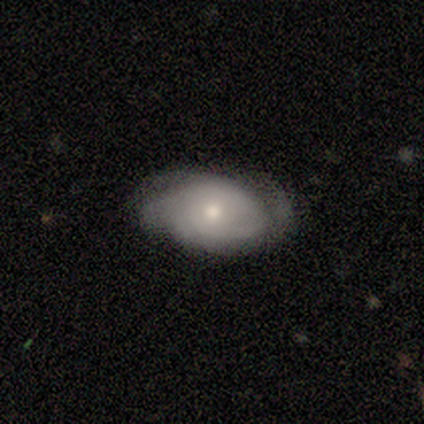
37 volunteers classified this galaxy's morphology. smooth-or-featured: featured or disk: 65% | smooth: 27% | star or artifact: 8%
  disk-edge-on: no: 96% | yes: 4%
    bar: no: 87% | weak: 13% | strong: 0%
    has-spiral-arms: yes: 83% | no: 17%
      spiral-winding: tight: 79% | medium: 11% | loose: 11%
      spiral-arm-count: can't tell: 68% | 2: 16% | 4: 11% | 3: 5% | 1: 0% | more than 4: 0%
    bulge-size: moderate: 52% | small: 43% | dominant: 4% | large: 0% | none: 0%
  merging: none: 71% | minor disturbance: 24% | major disturbance: 6% | merger: 0%